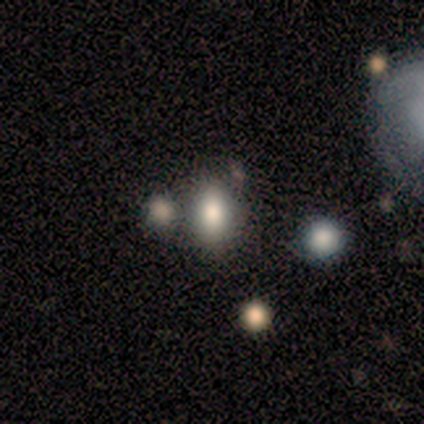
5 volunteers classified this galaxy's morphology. Smooth or featured? smooth (80%)
How rounded? in between (100%)
Merging? none (60%)